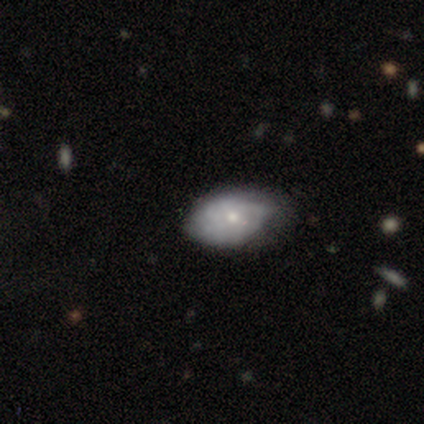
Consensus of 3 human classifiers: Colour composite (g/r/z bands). It shows a smooth galaxy with no disk features (67%) that is in between round and cigar-shaped (100%). Merging: minor disturbance (67%).